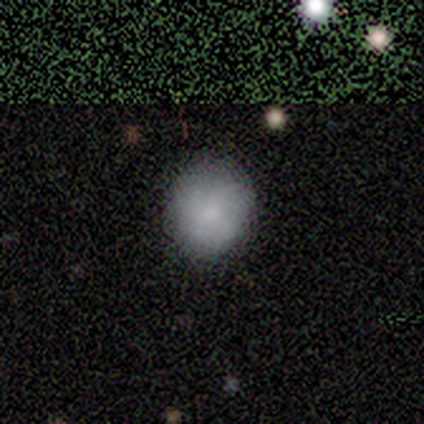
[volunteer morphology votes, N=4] Smooth or featured?
  - smooth: 50% *
  - featured or disk: 25%
  - star or artifact: 25%
How rounded?
  - round: 100% *
  - in between: 0%
  - cigar-shaped: 0%
Merging?
  - none: 100% *
  - minor disturbance: 0%
  - major disturbance: 0%
  - merger: 0%